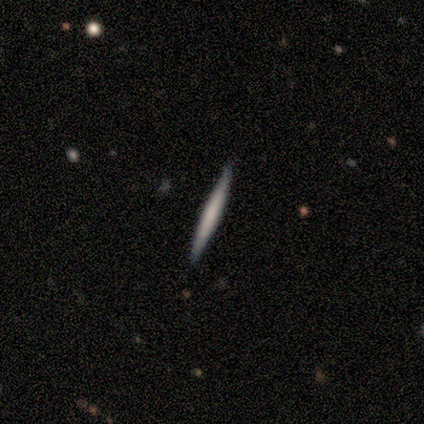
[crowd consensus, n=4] smooth_or_featured: smooth (p=0.50) [tied with: featured or disk p=0.50]
how_rounded: cigar-shaped (p=1.00)
merging: none (p=0.75) [alt: minor disturbance p=0.25]